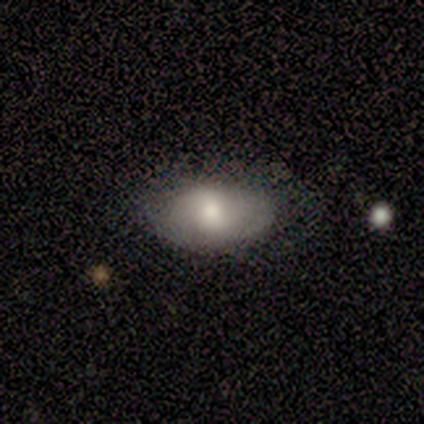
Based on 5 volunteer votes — Smooth or featured: smooth — 80% (featured or disk — 20%)
How rounded: in between — 100%
Merging: none — 60% (minor disturbance — 40%)